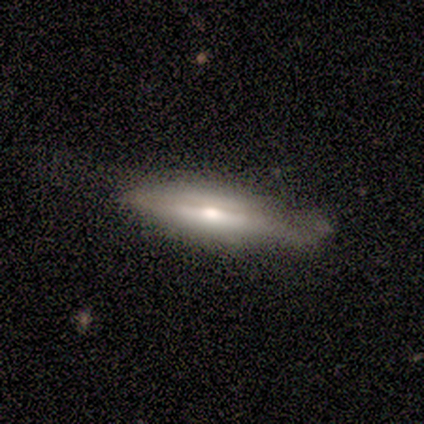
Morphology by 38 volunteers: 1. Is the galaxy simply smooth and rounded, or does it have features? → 61% featured or disk, 34% smooth, 5% star or artifact.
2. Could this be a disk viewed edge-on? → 74% yes, 26% no.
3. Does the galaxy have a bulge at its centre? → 76% rounded, 12% boxy, 12% none.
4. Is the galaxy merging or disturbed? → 47% minor disturbance, 44% none, 6% major disturbance, 3% merger.